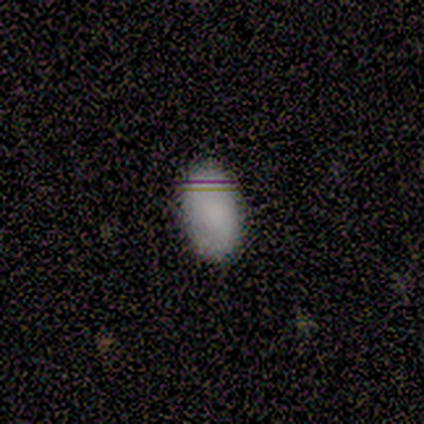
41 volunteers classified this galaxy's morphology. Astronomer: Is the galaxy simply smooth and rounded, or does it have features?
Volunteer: smooth — 80%.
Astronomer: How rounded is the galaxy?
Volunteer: in between — 100%.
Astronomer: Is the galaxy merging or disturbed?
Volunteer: none — 85%.